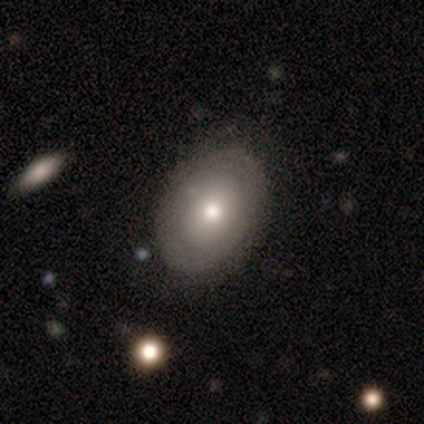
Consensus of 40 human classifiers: Morphology: type=smooth (50%); roundness=in between (55%); merging=none (53%).